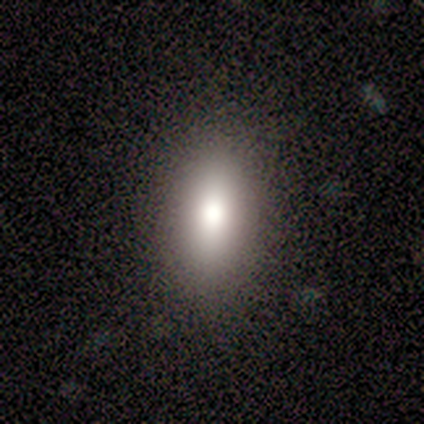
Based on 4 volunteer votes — Smooth or featured: smooth — 50% (featured or disk — 25%)
How rounded: in between — 100%
Merging: none — 100%